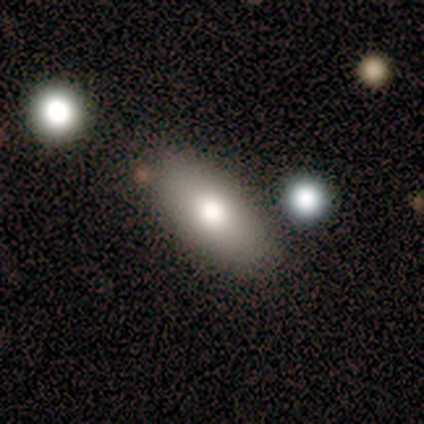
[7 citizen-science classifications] A smooth galaxy with no disk features (86%) that is in between round and cigar-shaped (83%).

Vote fractions:
- Smooth or featured? smooth: 86% / featured or disk: 14% / star or artifact: 0%
- How rounded? in between: 83% / cigar-shaped: 17% / round: 0%
- Merging? none: 86% / minor disturbance: 14% / major disturbance: 0% / merger: 0%